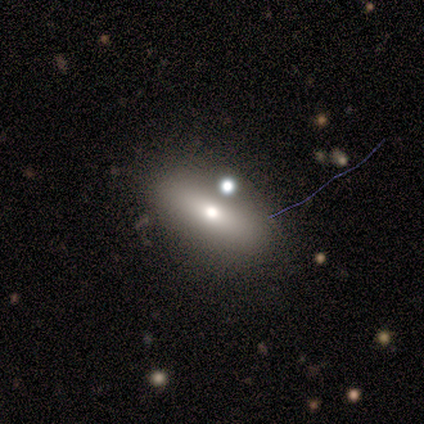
Q: Smooth or featured?
A: smooth (60%); runner-up: featured or disk (20%)
Q: How rounded?
A: in between (67%); runner-up: cigar-shaped (33%)
Q: Merging?
A: none (75%); runner-up: merger (25%)